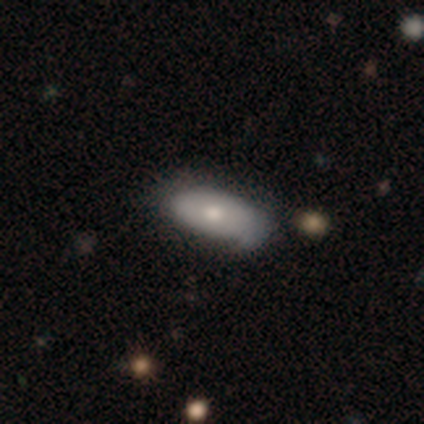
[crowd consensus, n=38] This is likely a smooth galaxy (71%). How rounded: clearly in between (89%). Merging: possibly none (49%, tied with minor disturbance).